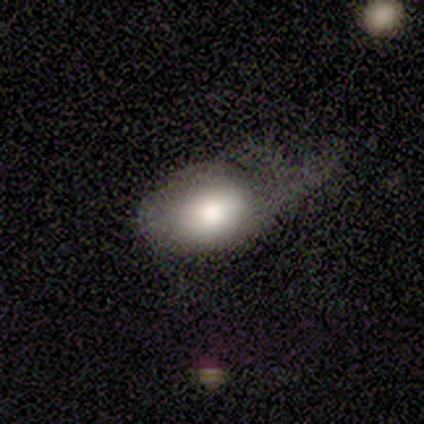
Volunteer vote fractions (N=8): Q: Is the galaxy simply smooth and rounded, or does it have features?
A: smooth — 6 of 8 (75%).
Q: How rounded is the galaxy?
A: in between — 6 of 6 (100%).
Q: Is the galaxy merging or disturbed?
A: major disturbance — 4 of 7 (57%).